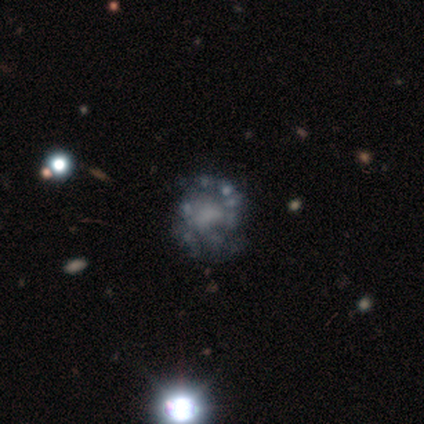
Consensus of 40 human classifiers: Volunteers were most divided on "spiral arms": no: 56%, yes: 44%. Remaining: edge-on disk — no (100%); bar — no (81%); smooth or featured — featured or disk (80%); bulge size — none (69%); merging — none (35%).